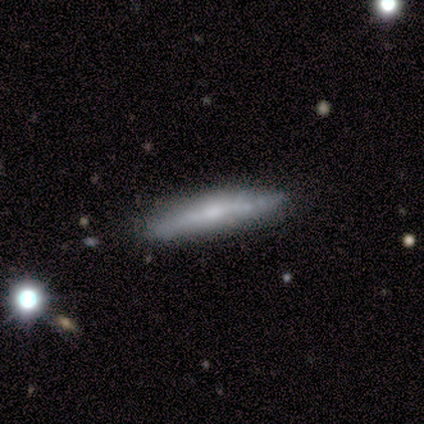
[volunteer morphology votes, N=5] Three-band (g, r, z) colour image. It shows a featured or disk galaxy (60%) viewed edge-on (100%) with a rounded central bulge (67%). Merging: none (60%).